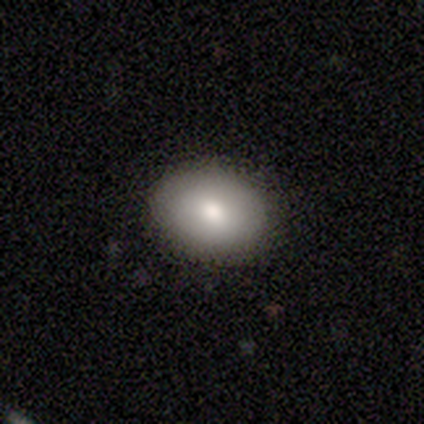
Morphology: type=smooth (85%); roundness=in between (63%); merging=none (92%).